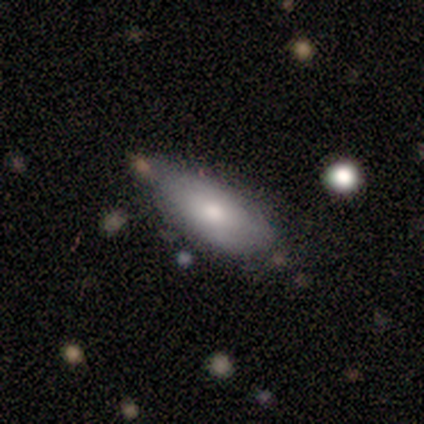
A smooth galaxy with no disk features (60%) that is in between round and cigar-shaped (67%).

Vote fractions:
- Smooth or featured? smooth: 60% / featured or disk: 40% / star or artifact: 0%
- How rounded? in between: 67% / cigar-shaped: 33% / round: 0%
- Merging? none: 100% / minor disturbance: 0% / major disturbance: 0% / merger: 0%